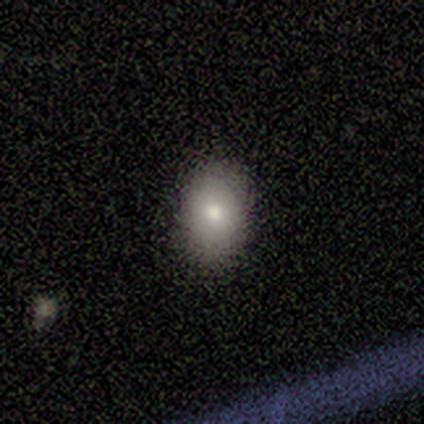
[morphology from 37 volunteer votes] This appears to be a smooth galaxy with no disk features (76%) that is in between round and cigar-shaped (75%). Merging: none (85%).